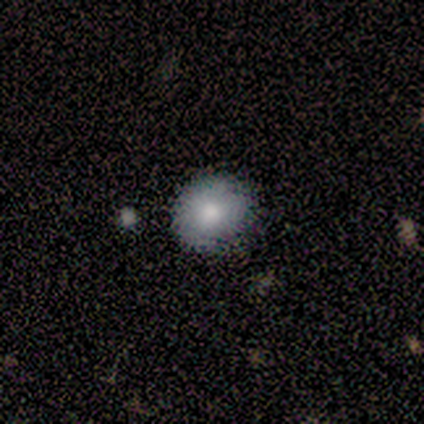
Morphology: type=smooth (80%); roundness=round (75%); merging=none (100%).